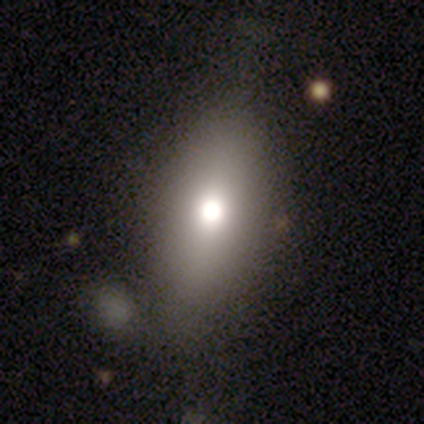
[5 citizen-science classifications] This appears to be a smooth galaxy with no disk features (80%) that is in between round and cigar-shaped (100%). Merging: none (50%).